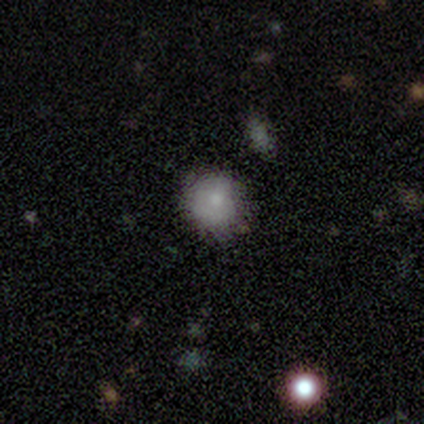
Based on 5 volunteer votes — Overall: smooth (100%). How rounded: round (80%). Merging: none (80%).